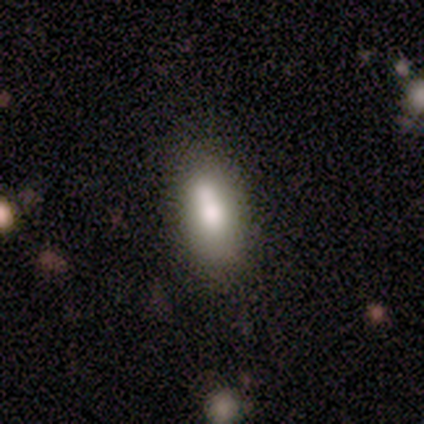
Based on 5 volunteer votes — Morphology: type=smooth (100%); roundness=in between (80%); merging=none (40%, tied with minor disturbance).